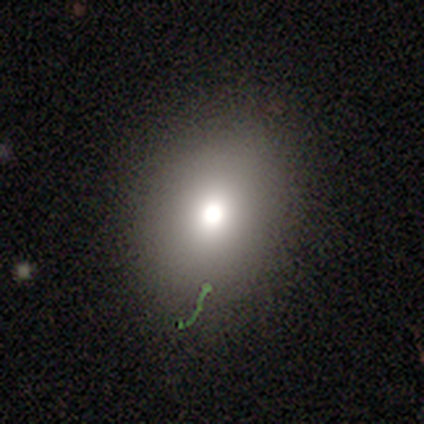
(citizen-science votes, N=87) This is likely a smooth galaxy (71%). How rounded: possibly in between (60%). Merging: likely none (77%).